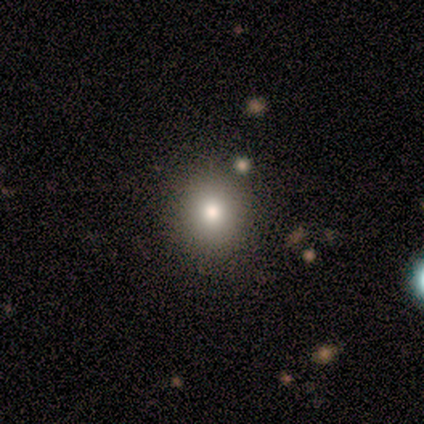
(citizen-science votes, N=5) Q: Smooth or featured?
A: smooth (80%); runner-up: star or artifact (20%)
Q: How rounded?
A: round (100%)
Q: Merging?
A: none (100%)